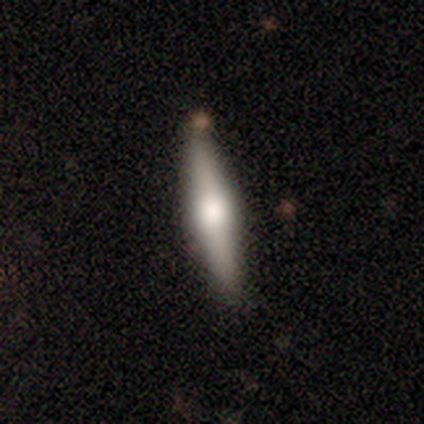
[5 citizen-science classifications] A featured or disk galaxy (80%) viewed edge-on (100%) with a rounded central bulge (75%). Merging: none (100%).